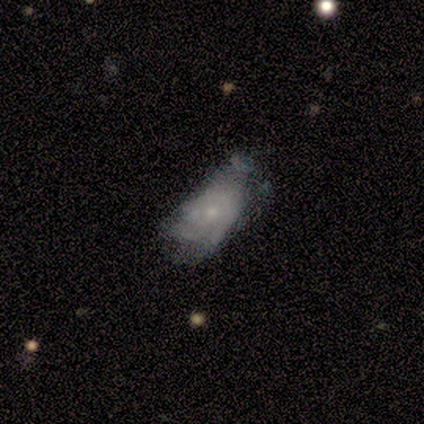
Overall: smooth (80%). How rounded: in between (100%). Merging: minor disturbance (50%; none 25%).